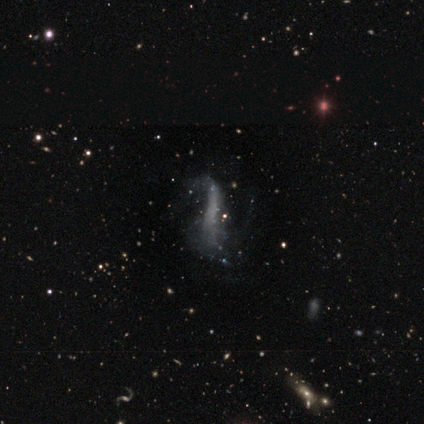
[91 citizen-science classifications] Smooth or featured?
  - featured or disk: 56% *
  - smooth: 22%
  - star or artifact: 22%
Edge-on disk?
  - no: 80% *
  - yes: 20%
Bar?
  - no: 56% *
  - strong: 34%
  - weak: 10%
Spiral arms?
  - no: 51% *
  - yes: 49%
Bulge size?
  - none: 93% *
  - moderate: 7%
  - dominant: 0%
  - large: 0%
  - small: 0%
Merging?
  - major disturbance: 55% *
  - none: 21%
  - minor disturbance: 21%
  - merger: 3%